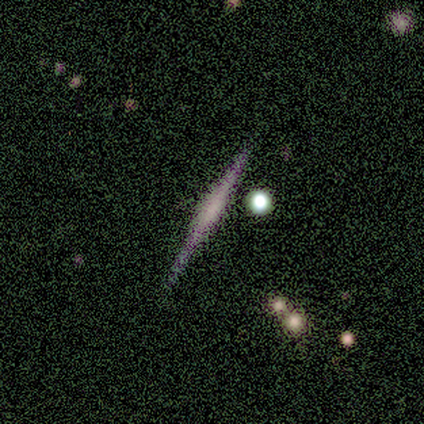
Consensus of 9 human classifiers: Smooth or featured: featured or disk — 44% (smooth — 33%)
Edge-on disk: yes — 100%
Edge-on bulge: none — 50% (boxy — 25%)
Merging: none — 71% (minor disturbance — 14%)